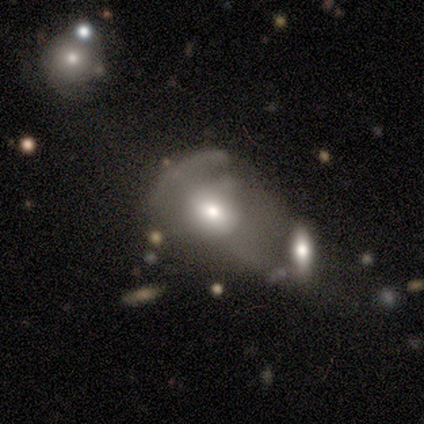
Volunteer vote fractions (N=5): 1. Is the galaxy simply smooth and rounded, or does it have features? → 60% featured or disk, 40% smooth, 0% star or artifact.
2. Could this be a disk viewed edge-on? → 100% no, 0% yes.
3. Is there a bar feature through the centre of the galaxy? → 67% no, 33% strong, 0% weak.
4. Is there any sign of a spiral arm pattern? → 100% no, 0% yes.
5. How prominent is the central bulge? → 67% moderate, 33% large, 0% dominant, 0% small, 0% none.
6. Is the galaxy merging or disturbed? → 40% merger, 20% none, 20% minor disturbance, 20% major disturbance.